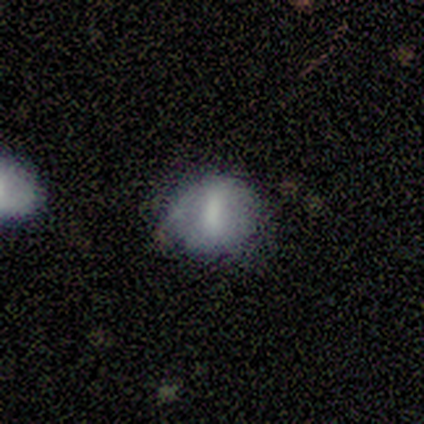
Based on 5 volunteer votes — Smooth or featured? 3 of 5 (60%) said featured or disk. Edge-on disk? 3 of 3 (100%) said no. Bar? 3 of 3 (100%) said strong. Spiral arms? 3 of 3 (100%) said no. Bulge size? 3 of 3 (100%) said none. Merging? 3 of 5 (60%) said none.